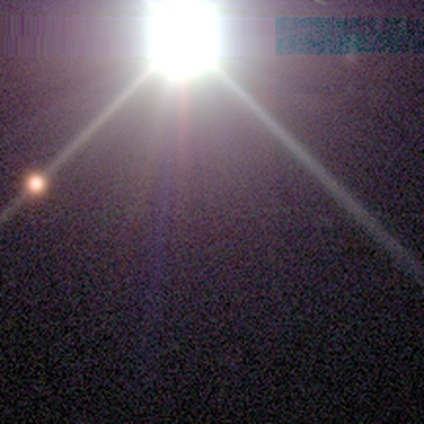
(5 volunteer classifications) Morphology: type=star or artifact (100%).